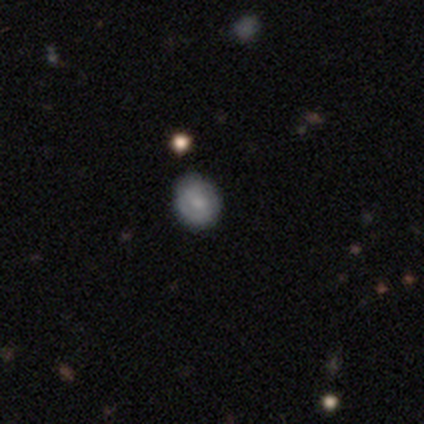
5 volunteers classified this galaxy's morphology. smooth-or-featured: smooth: 80% | featured or disk: 20% | star or artifact: 0%
  how-rounded: round: 100% | in between: 0% | cigar-shaped: 0%
  merging: none: 60% | minor disturbance: 40% | major disturbance: 0% | merger: 0%